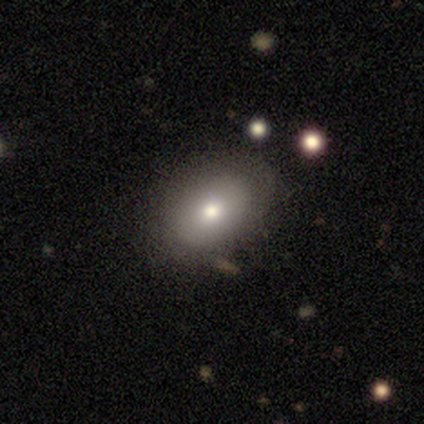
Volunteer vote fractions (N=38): Smooth or featured: smooth — 68% (featured or disk — 18%)
How rounded: in between — 69% (round — 31%)
Merging: none — 76% (minor disturbance — 18%)